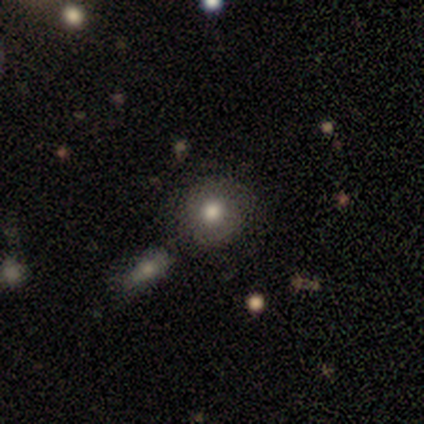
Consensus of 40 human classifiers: smooth 72%, featured or disk 22%, star or artifact 5%. Down the decision tree: how rounded — round (86%); merging — none (74%).